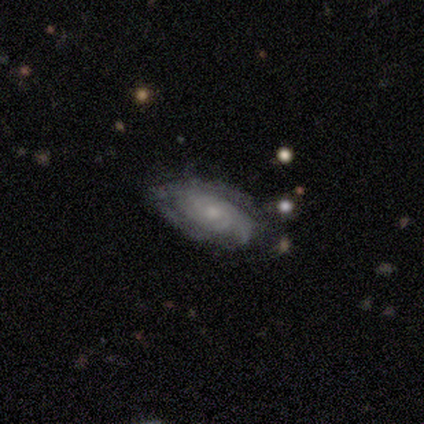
This appears to be a featured or disk galaxy (76%) with no bar (73%), tight (59%) spiral arms (94%) and a small central bulge (65%). Merging: none (64%).